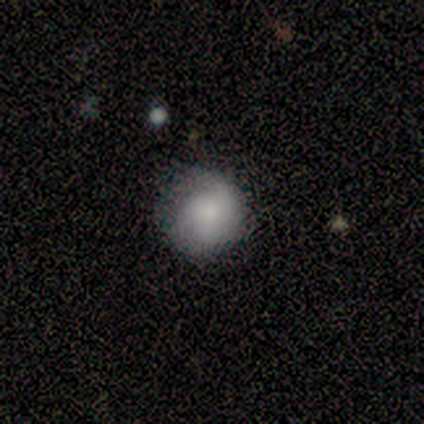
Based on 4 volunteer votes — This appears to be a smooth galaxy with no disk features (75%) that is round (100%). Merging: none (75%).